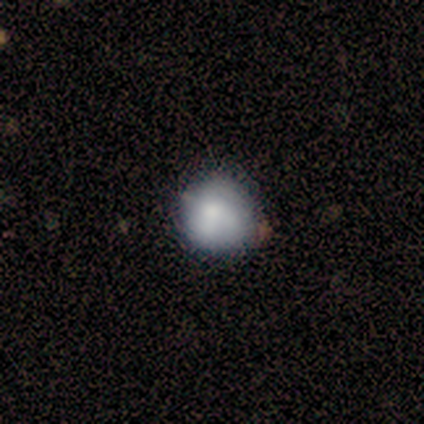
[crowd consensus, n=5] Smooth or featured? smooth (60%)
How rounded? round (67%)
Merging? none (100%)